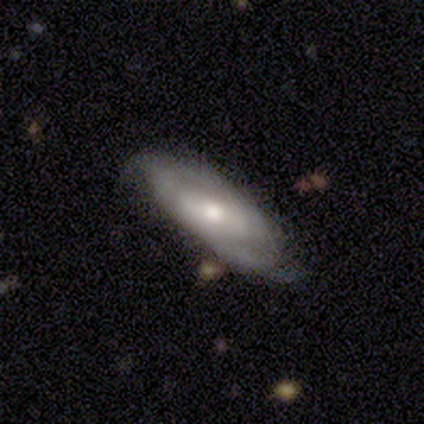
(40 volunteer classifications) featured or disk 68%, smooth 25%, star or artifact 8%. Down the decision tree: edge-on disk — no (96%); bar — no (54%); spiral arms — yes (88%); spiral arm count — 2 (48%); spiral winding — tight (57%); bulge size — moderate (62%); merging — none (54%).